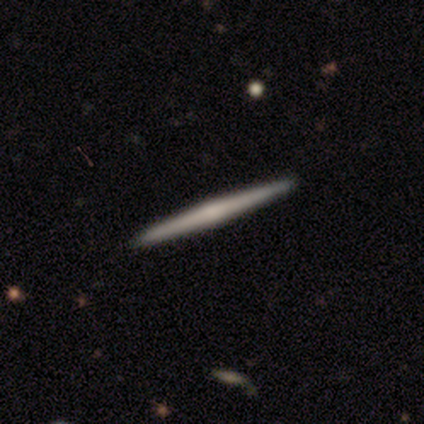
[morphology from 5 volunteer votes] Q: Smooth or featured?
A: featured or disk (60%); runner-up: smooth (40%)
Q: Edge-on disk?
A: yes (100%)
Q: Edge-on bulge?
A: rounded (67%); runner-up: none (33%)
Q: Merging?
A: none (100%)